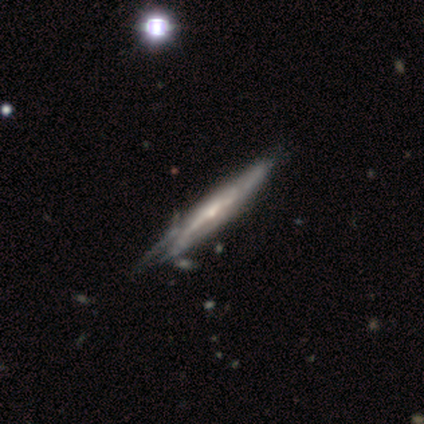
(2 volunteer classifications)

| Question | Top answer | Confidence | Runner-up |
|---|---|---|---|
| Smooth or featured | smooth | 50% | tied: featured or disk (50%) |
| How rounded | cigar-shaped | 100% | — |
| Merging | none | 50% | tied: major disturbance (50%) |